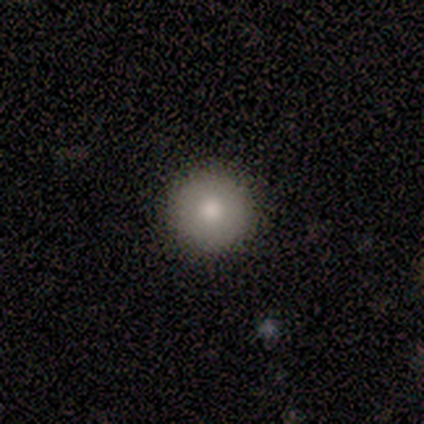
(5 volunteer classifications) smooth-or-featured: smooth: 100% | featured or disk: 0% | star or artifact: 0%
  how-rounded: round: 100% | in between: 0% | cigar-shaped: 0%
  merging: none: 100% | minor disturbance: 0% | major disturbance: 0% | merger: 0%